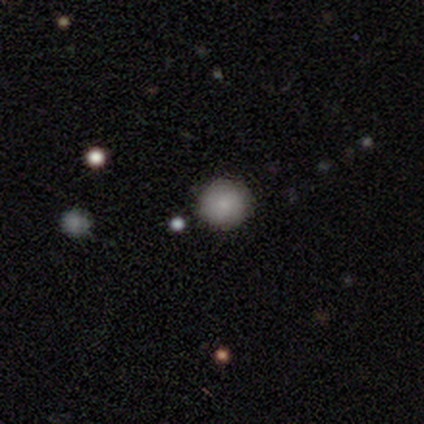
smooth_or_featured: smooth (p=1.00)
how_rounded: round (p=1.00)
merging: none (p=0.80) [alt: minor disturbance p=0.20]